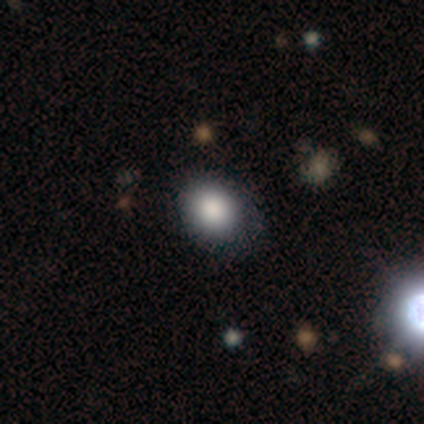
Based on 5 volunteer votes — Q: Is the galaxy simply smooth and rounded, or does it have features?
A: smooth — 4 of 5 (80%).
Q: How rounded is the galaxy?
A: round — 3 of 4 (75%).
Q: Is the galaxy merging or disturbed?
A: none — 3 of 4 (75%).